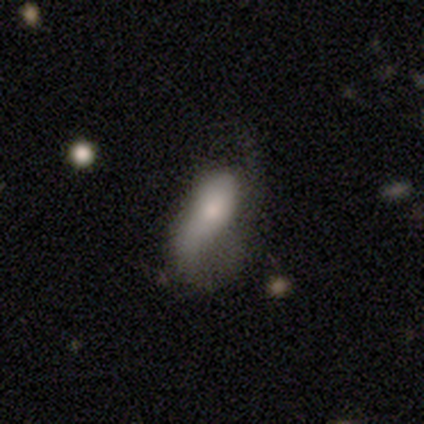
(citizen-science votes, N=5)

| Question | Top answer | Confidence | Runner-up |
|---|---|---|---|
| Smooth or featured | smooth | 60% | featured or disk (40%) |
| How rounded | in between | 67% | cigar-shaped (33%) |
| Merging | major disturbance | 60% | none (20%) |